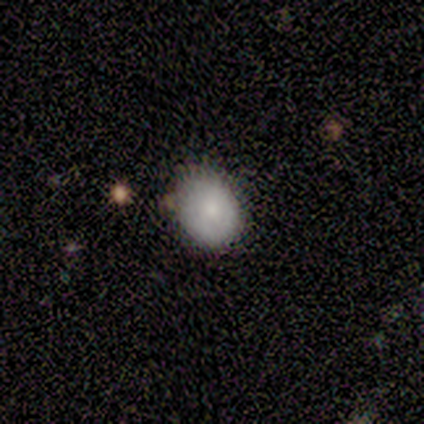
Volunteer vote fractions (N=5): Smooth or featured?
  - smooth: 100% *
  - featured or disk: 0%
  - star or artifact: 0%
How rounded?
  - round: 80% *
  - in between: 20%
  - cigar-shaped: 0%
Merging?
  - none: 100% *
  - minor disturbance: 0%
  - major disturbance: 0%
  - merger: 0%